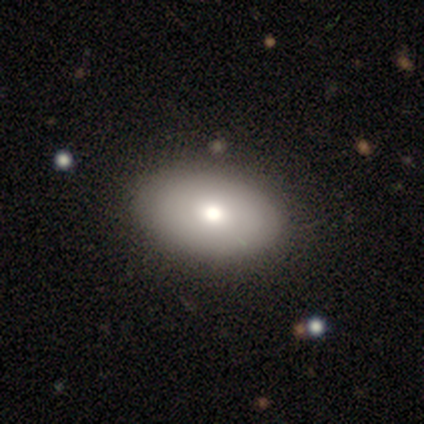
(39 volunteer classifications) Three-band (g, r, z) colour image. It shows a smooth galaxy with no disk features (79%) that is in between round and cigar-shaped (90%). Merging: none (66%).